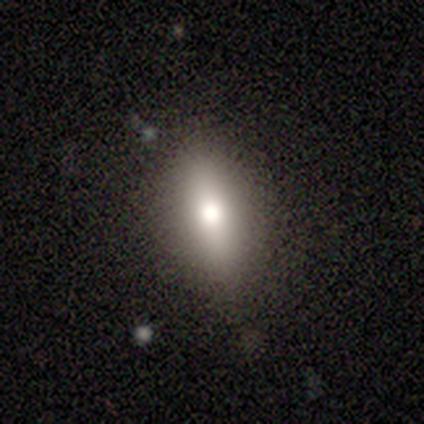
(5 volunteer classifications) This appears to be a smooth galaxy with no disk features (80%) that is in between round and cigar-shaped (75%). Merging: none (60%).